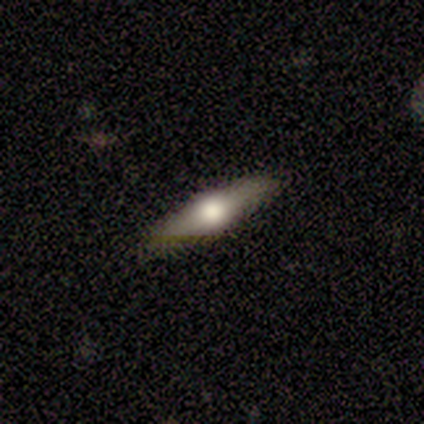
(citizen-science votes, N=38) Smooth or featured? featured or disk (58%)
Edge-on disk? yes (91%)
Edge-on bulge? rounded (95%)
Merging? none (83%)